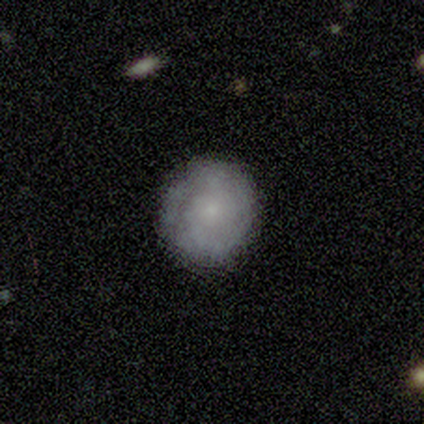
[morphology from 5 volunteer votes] Overall: featured or disk (60%; smooth 40%). Edge-on disk: no (100%). Bar: no (100%). Spiral arms: yes (100%). Spiral arm count: can't tell (100%). Spiral winding: tight (100%). Bulge size: small (67%; moderate 33%). Merging: none (100%).